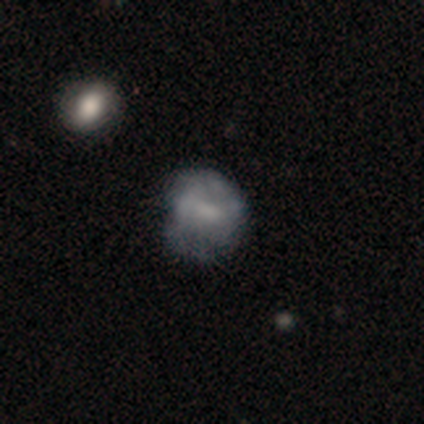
This is clearly a featured or disk galaxy (100%). It is clearly not viewed edge-on (100%). Bar: clearly weak (80%). Spiral arm pattern: likely yes (60%). Spiral arm count: clearly 2 (100%). Spiral winding: likely tight (67%). Central bulge: marginally moderate (40%, tied with none). Merging: likely none (60%).